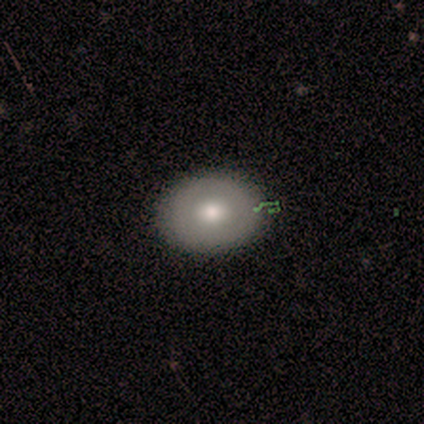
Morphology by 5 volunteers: This is clearly a smooth galaxy (80%). How rounded: clearly in between (100%). Merging: clearly none (80%).